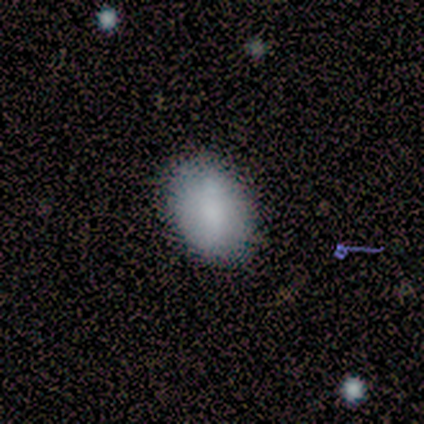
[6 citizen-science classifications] Smooth or featured? smooth (100%)
How rounded? in between (67%)
Merging? none (83%)